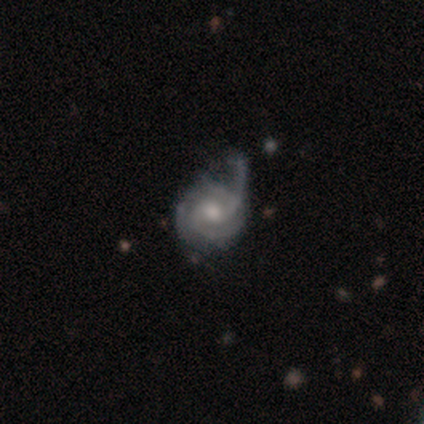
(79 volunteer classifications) Overall: featured or disk (86%). Edge-on disk: no (99%). Bar: no (60%; weak 39%). Spiral arms: yes (97%). Spiral arm count: 3 (38%; 2 35%). Spiral winding: tight (48%; medium 45%). Bulge size: moderate (63%). Merging: major disturbance (27%; minor disturbance 18%).